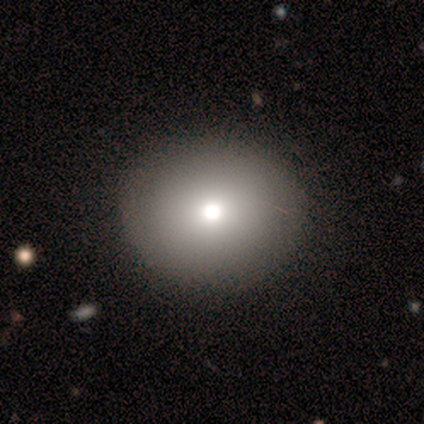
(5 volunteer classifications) smooth-or-featured: smooth: 80% | featured or disk: 20% | star or artifact: 0%
  how-rounded: round: 50% (tied) | in between: 50% (tied) | cigar-shaped: 0%
  merging: none: 100% | minor disturbance: 0% | major disturbance: 0% | merger: 0%